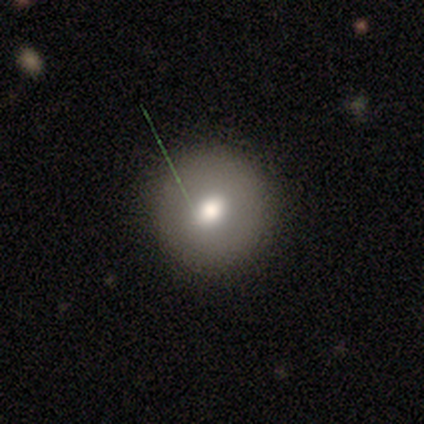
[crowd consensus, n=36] Smooth or featured: smooth — 75% (featured or disk — 17%)
How rounded: round — 89% (in between — 7%)
Merging: none — 88% (minor disturbance — 6%)